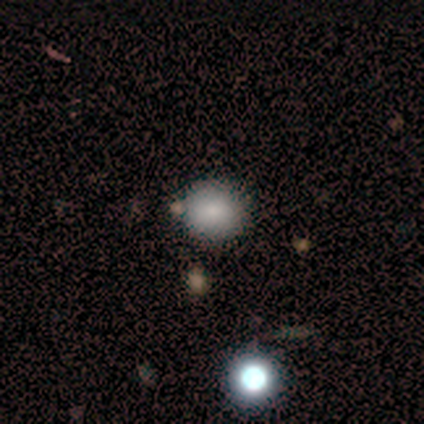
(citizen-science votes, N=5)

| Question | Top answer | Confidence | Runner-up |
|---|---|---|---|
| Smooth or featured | smooth | 100% | — |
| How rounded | round | 80% | in between (20%) |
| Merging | none | 100% | — |